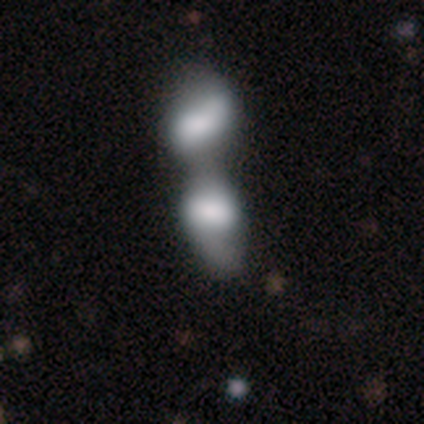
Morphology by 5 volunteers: type=smooth (60%); roundness=in between (100%); merging=merger (100%).